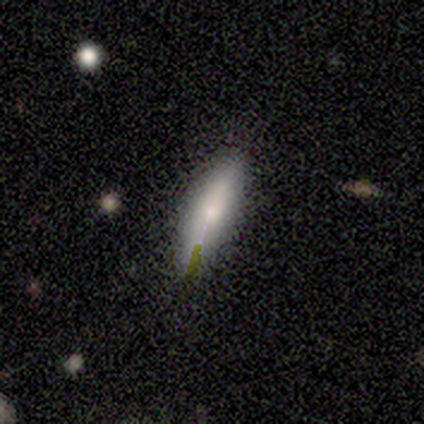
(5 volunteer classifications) A smooth galaxy with no disk features (80%) that is cigar-shaped (100%). Merging: none (80%).